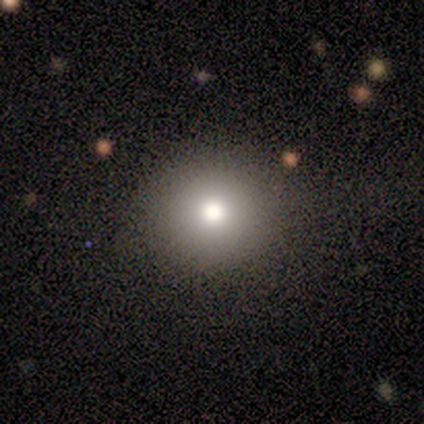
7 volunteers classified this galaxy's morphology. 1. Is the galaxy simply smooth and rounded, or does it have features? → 71% smooth, 14% featured or disk, 14% star or artifact.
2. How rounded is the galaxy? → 100% round, 0% in between, 0% cigar-shaped.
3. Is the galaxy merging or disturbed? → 100% none, 0% minor disturbance, 0% major disturbance, 0% merger.